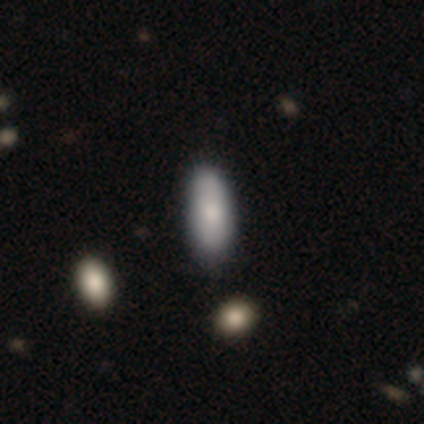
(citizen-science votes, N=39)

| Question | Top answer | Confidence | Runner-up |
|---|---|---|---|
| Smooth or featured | smooth | 85% | featured or disk (13%) |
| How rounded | in between | 76% | cigar-shaped (24%) |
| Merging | none | 74% | minor disturbance (18%) |